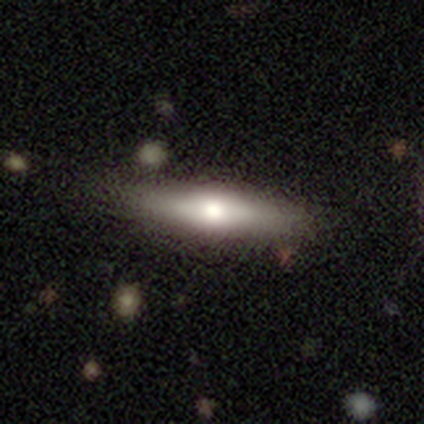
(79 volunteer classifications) Smooth or featured: smooth — 56% (featured or disk — 44%)
How rounded: cigar-shaped — 68% (in between — 32%)
Merging: none — 39% (minor disturbance — 9%)